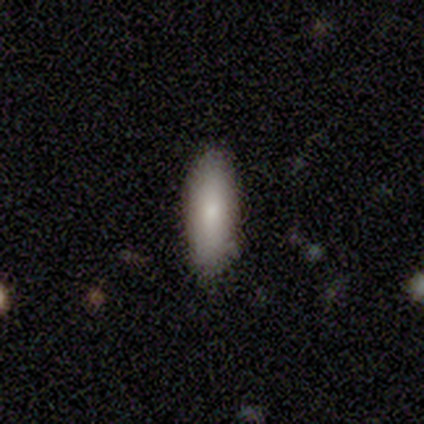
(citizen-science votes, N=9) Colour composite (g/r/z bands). It shows a smooth galaxy with no disk features (78%) that is in between round and cigar-shaped (71%). Merging: none (89%).